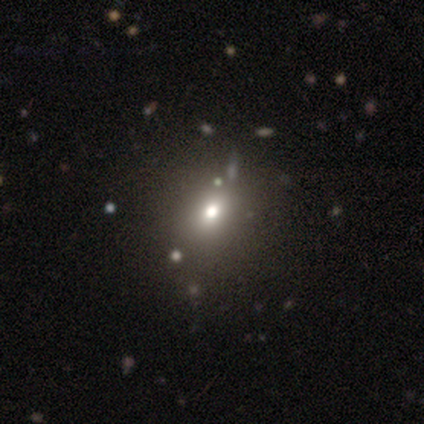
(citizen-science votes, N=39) smooth_or_featured: smooth (p=0.59) [alt: star or artifact p=0.31]
how_rounded: round (p=0.70) [alt: in between p=0.30]
merging: none (p=0.59) [alt: minor disturbance p=0.11]